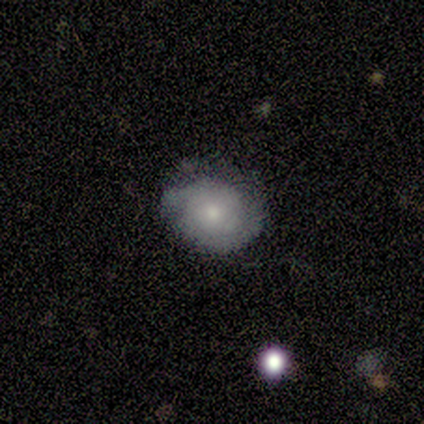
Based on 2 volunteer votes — Volunteers were most divided on "spiral arms" (2-way tie): yes: 50%, no: 50%; "bulge size" (2-way tie): moderate: 50%, none: 50%, dominant: 0%, large: 0%, small: 0%. More confident: smooth or featured — featured or disk (100%); edge-on disk — no (100%); bar — no (100%); spiral winding — tight (100%); spiral arm count — can't tell (100%); merging — none (100%).